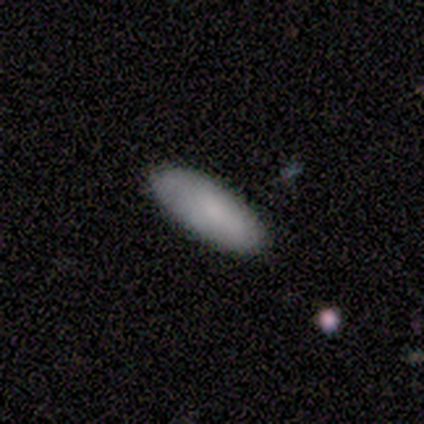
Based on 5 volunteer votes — Smooth or featured: smooth — 100%
How rounded: in between — 100%
Merging: none — 100%